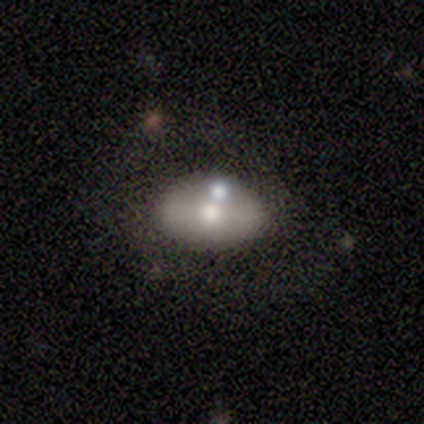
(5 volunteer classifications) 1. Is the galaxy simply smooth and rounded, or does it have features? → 60% smooth, 20% featured or disk, 20% star or artifact.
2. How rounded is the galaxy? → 67% in between, 33% round, 0% cigar-shaped.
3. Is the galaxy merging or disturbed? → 50% merger, 25% minor disturbance, 25% major disturbance, 0% none.